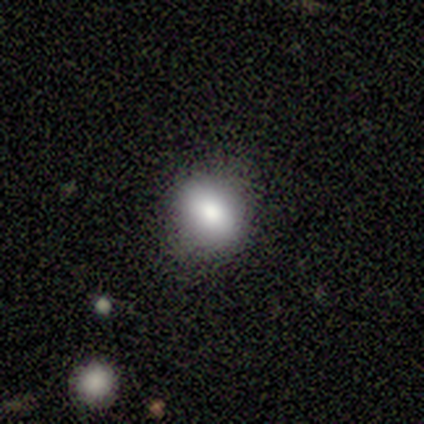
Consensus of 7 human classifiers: Overall: smooth (71%). How rounded: round (80%). Merging: none (100%).